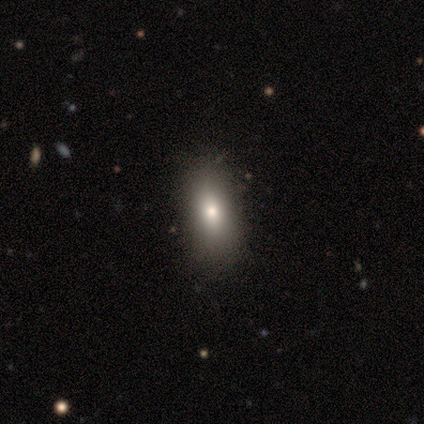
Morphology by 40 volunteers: Q: Smooth or featured?
A: smooth (70%); runner-up: star or artifact (18%)
Q: How rounded?
A: in between (86%); runner-up: cigar-shaped (14%)
Q: Merging?
A: none (88%); runner-up: minor disturbance (12%)